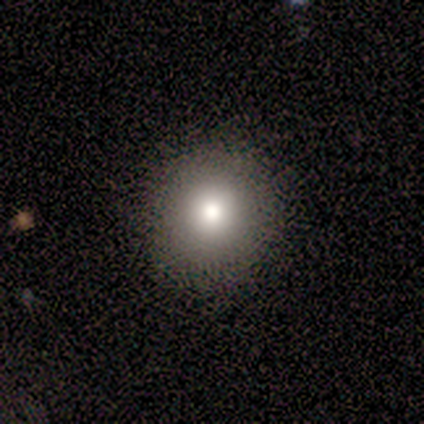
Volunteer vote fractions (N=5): Morphology: type=smooth (60%); roundness=round (100%); merging=none (80%).